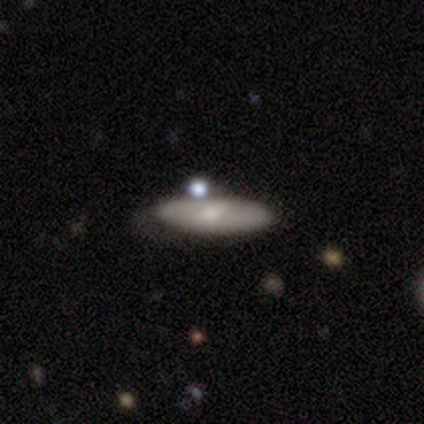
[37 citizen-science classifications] Smooth or featured? smooth (70%)
How rounded? in between (54%)
Merging? none (49%)